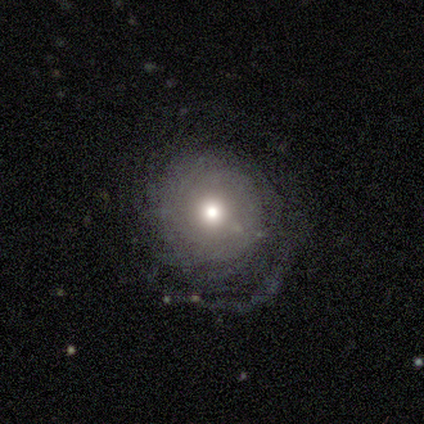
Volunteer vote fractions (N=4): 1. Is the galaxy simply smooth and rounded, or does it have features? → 100% featured or disk, 0% smooth, 0% star or artifact.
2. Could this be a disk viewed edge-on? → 100% no, 0% yes.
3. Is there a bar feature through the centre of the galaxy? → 100% no, 0% strong, 0% weak.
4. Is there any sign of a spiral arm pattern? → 75% yes, 25% no.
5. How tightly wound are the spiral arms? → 67% tight, 33% medium, 0% loose.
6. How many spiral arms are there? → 67% more than 4, 33% can't tell, 0% 1, 0% 2, 0% 3, 0% 4.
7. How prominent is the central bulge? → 50% moderate (tied), 50% small (tied), 0% dominant, 0% large, 0% none.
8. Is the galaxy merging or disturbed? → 100% none, 0% minor disturbance, 0% major disturbance, 0% merger.